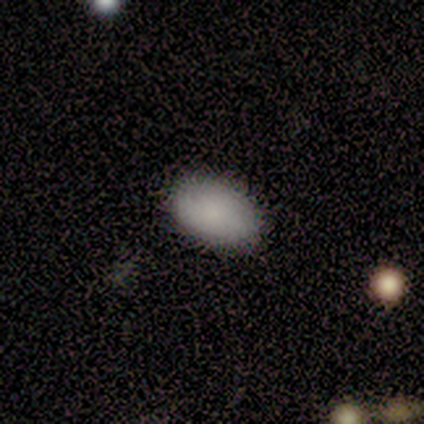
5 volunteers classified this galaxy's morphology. Smooth or featured: smooth — 80% (featured or disk — 20%)
How rounded: in between — 100%
Merging: none — 80% (minor disturbance — 20%)